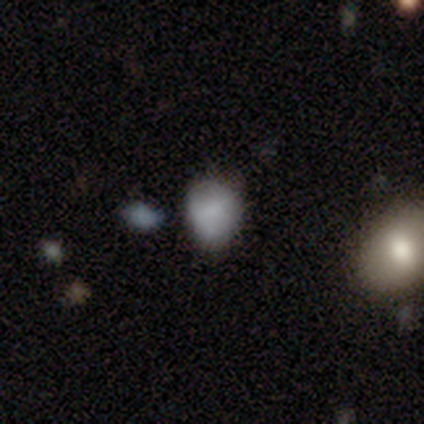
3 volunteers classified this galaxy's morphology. Smooth or featured: smooth — 100%
How rounded: round — 67% (in between — 33%)
Merging: none — 100%